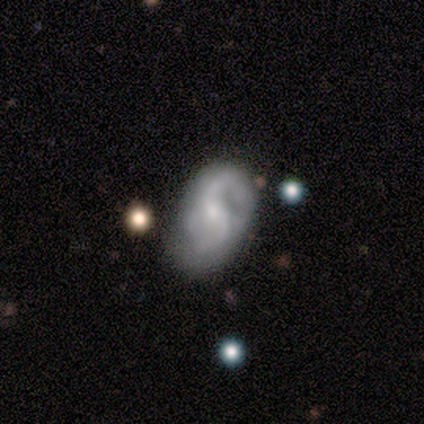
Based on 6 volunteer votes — Q: Smooth or featured?
A: smooth (50%); tied with: featured or disk (50%)
Q: How rounded?
A: in between (100%)
Q: Merging?
A: none (67%); runner-up: minor disturbance (17%)